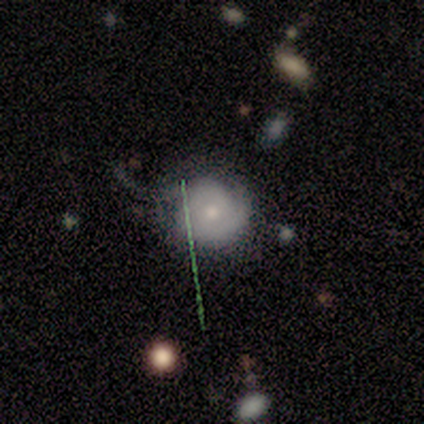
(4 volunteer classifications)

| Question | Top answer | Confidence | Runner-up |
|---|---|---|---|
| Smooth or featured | smooth | 50% | featured or disk (25%) |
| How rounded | round | 100% | — |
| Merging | none | 33% | tied: minor disturbance (33%), major disturbance (33%) |